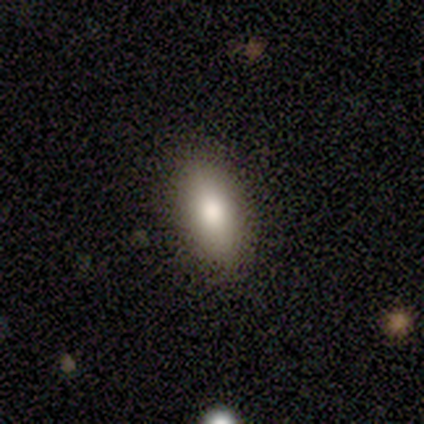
Smooth or featured? 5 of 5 (100%) said smooth. How rounded? 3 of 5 (60%) said in between. Merging? 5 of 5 (100%) said none.